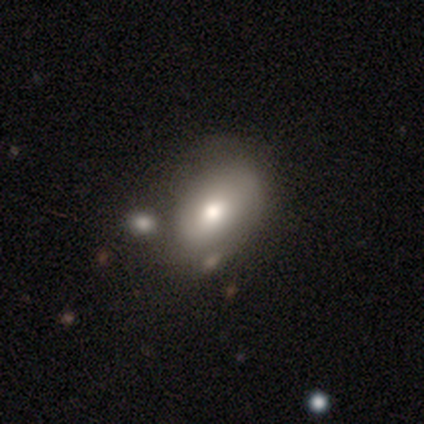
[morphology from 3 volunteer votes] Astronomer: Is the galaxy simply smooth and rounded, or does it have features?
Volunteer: smooth — 100%.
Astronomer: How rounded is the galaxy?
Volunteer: in between — 67%.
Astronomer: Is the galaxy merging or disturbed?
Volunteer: none — 67%.